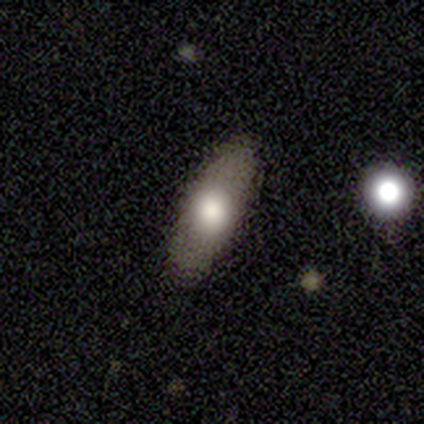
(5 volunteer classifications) Morphology: type=smooth (60%); roundness=in between (67%); merging=none (100%).